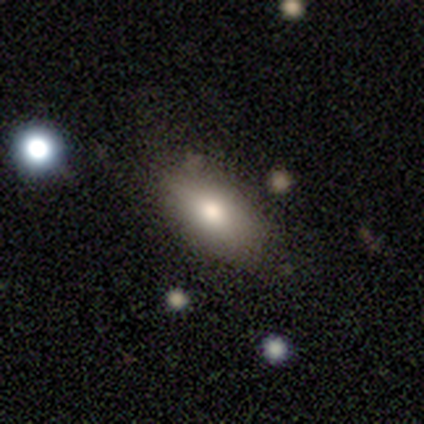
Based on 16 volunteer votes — A smooth galaxy with no disk features (88%) that is in between round and cigar-shaped (93%). Merging: none (67%).